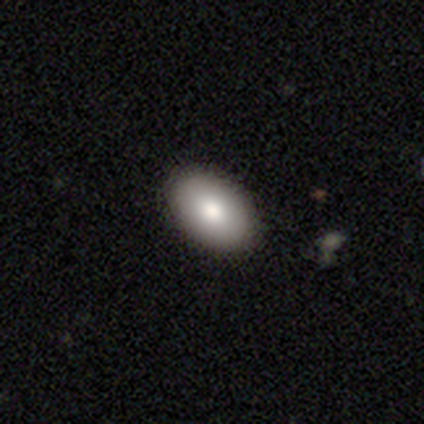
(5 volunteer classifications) A smooth galaxy with no disk features (100%) that is in between round and cigar-shaped (80%). Merging: none (100%).